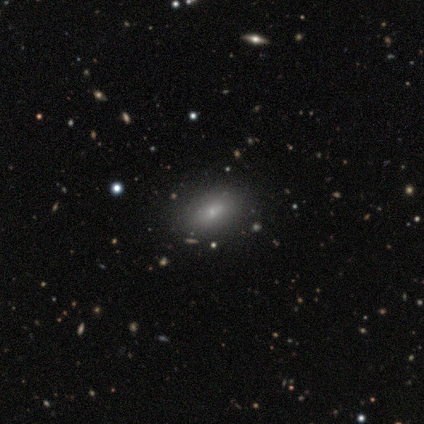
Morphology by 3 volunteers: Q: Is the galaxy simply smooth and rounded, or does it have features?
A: smooth — 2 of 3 (67%).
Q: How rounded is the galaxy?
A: round — 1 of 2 (50%, tied with in between).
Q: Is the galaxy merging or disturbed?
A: none — 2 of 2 (100%).